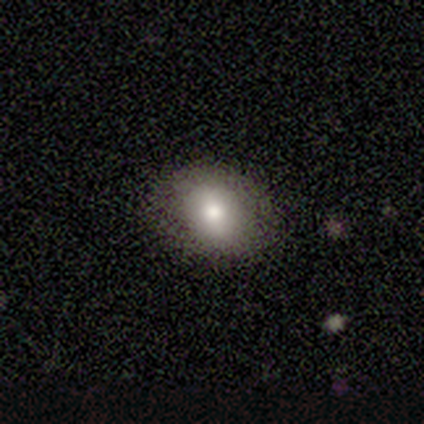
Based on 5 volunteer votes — smooth-or-featured: smooth: 80% | featured or disk: 20% | star or artifact: 0%
  how-rounded: in between: 75% | round: 25% | cigar-shaped: 0%
  merging: none: 100% | minor disturbance: 0% | major disturbance: 0% | merger: 0%